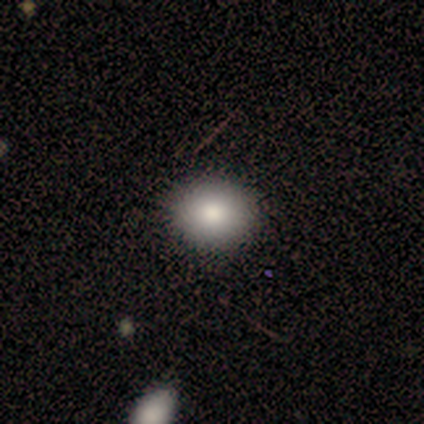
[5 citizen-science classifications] smooth_or_featured: smooth (p=0.60) [alt: star or artifact p=0.40]
how_rounded: in between (p=0.67) [alt: round p=0.33]
merging: none (p=1.00)